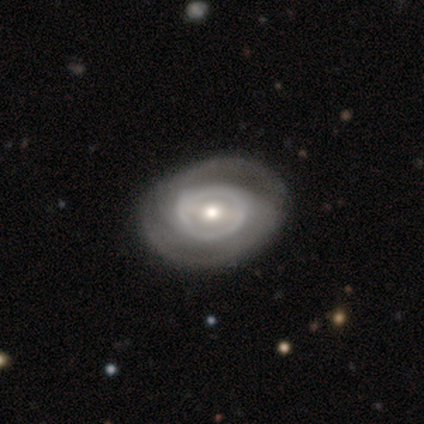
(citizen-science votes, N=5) A featured or disk galaxy (60%) with no bar (100%), no spiral arms (100%) and a large central bulge (33%, tied with moderate and small). Merging: none (67%).